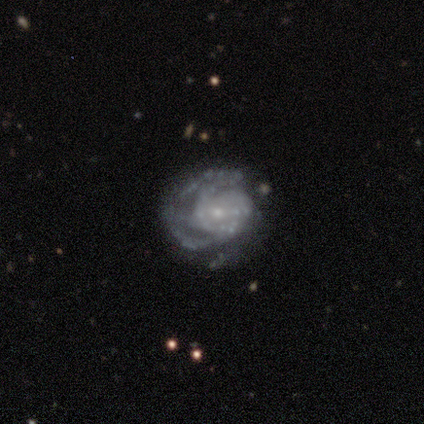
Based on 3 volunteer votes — Morphology: type=featured or disk (100%); edge-on=no (100%); bar=no (100%); spiral arms=yes (100%); winding=medium (67%); arm count=2 (33%, tied with 3 and can't tell); bulge=small (100%); merging=none (33%, tied with minor disturbance and major disturbance).